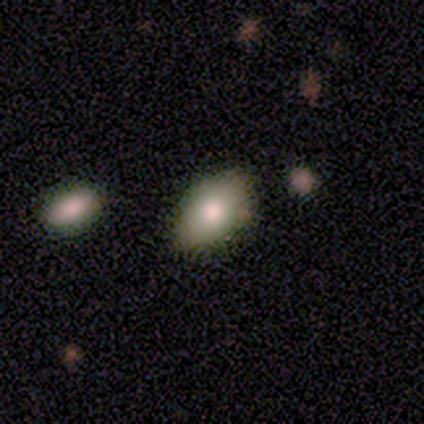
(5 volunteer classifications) Smooth or featured: smooth — 100%
How rounded: in between — 100%
Merging: none — 100%